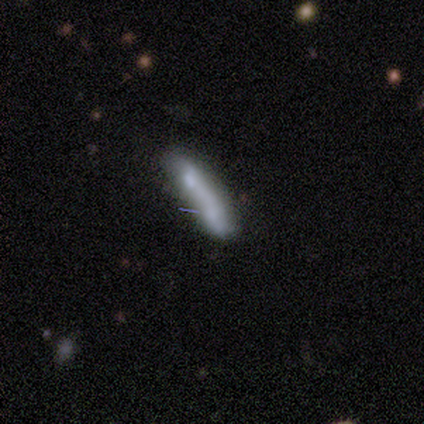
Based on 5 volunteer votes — Smooth or featured: smooth — 60% (featured or disk — 20%)
How rounded: cigar-shaped — 67% (in between — 33%)
Merging: merger — 75% (major disturbance — 25%)